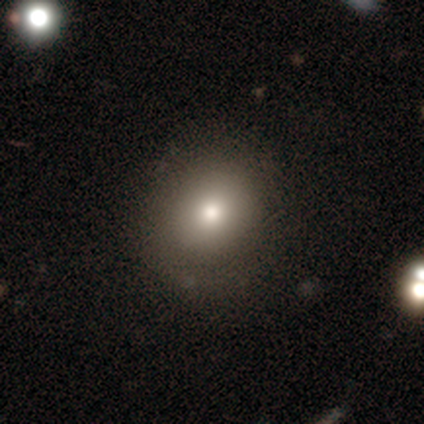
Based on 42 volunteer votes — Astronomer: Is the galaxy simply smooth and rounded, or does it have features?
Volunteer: smooth — 69%.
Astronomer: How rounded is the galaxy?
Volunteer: round — 72%.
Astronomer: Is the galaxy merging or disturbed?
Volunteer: none — 64%.